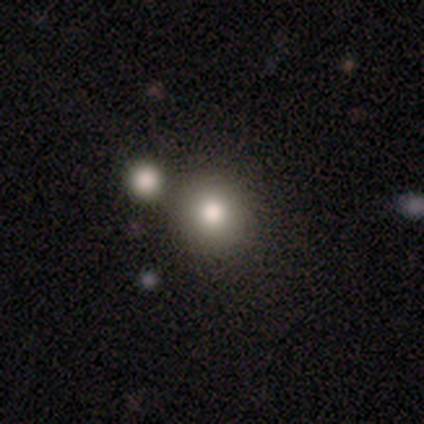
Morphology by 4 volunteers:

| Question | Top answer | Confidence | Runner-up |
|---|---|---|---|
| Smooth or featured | star or artifact | 50% | smooth (25%) |